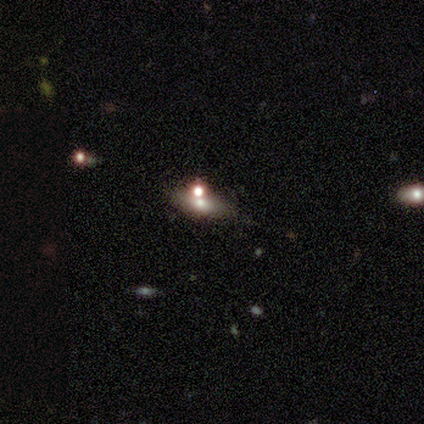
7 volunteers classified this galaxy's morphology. A featured or disk galaxy (71%) with a weak bar (67%), no spiral arms (100%) and a large central bulge (33%, tied with moderate and none).

Vote fractions:
- Smooth or featured? featured or disk: 71% / star or artifact: 29% / smooth: 0%
- Edge-on disk? no: 60% / yes: 40%
- Bar? weak: 67% / no: 33% / strong: 0%
- Spiral arms? no: 100% / yes: 0%
- Bulge size? large: 33% (tied) / moderate: 33% (tied) / none: 33% (tied) / dominant: 0% / small: 0%
- Merging? minor disturbance: 40% (tied) / merger: 40% (tied) / none: 20% / major disturbance: 0%